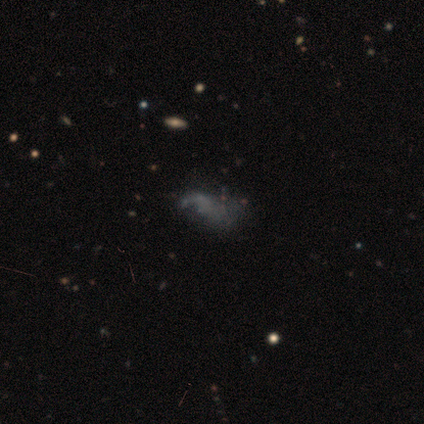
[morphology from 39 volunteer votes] Smooth or featured? 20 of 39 (51%) said featured or disk. Edge-on disk? 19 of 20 (95%) said no. Bar? 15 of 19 (79%) said no. Spiral arms? 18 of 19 (95%) said no. Bulge size? 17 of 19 (89%) said none. Merging? 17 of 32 (53%) said none.